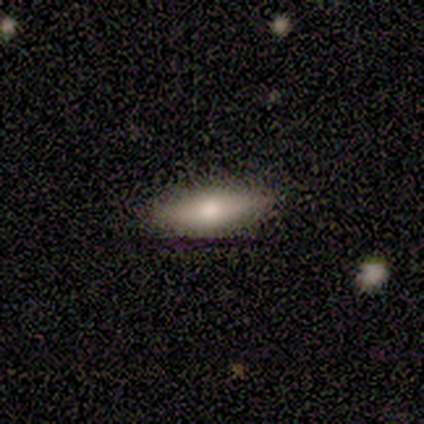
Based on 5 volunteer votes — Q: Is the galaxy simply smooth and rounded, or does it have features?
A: smooth — 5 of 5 (100%).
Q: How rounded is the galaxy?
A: cigar-shaped — 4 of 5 (80%).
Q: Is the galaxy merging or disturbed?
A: none — 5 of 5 (100%).